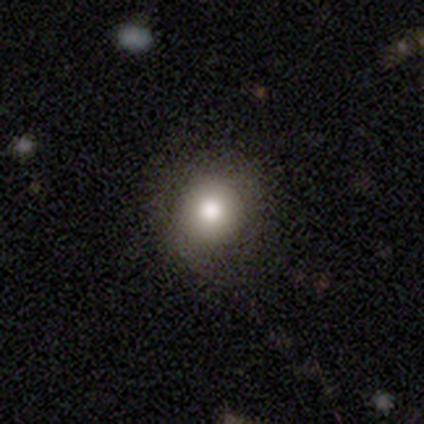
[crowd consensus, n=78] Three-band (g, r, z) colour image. It shows a smooth galaxy with no disk features (79%) that is round (90%). Merging: none (43%).